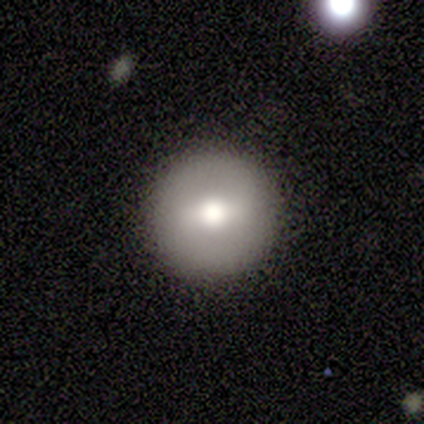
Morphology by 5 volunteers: A featured or disk galaxy (60%) with a weak bar (67%), no spiral arms (100%) and a large central bulge (33%, tied with moderate and small).

Vote fractions:
- Smooth or featured? featured or disk: 60% / smooth: 20% / star or artifact: 20%
- Edge-on disk? no: 100% / yes: 0%
- Bar? weak: 67% / no: 33% / strong: 0%
- Spiral arms? no: 100% / yes: 0%
- Bulge size? large: 33% (tied) / moderate: 33% (tied) / small: 33% (tied) / dominant: 0% / none: 0%
- Merging? none: 100% / minor disturbance: 0% / major disturbance: 0% / merger: 0%